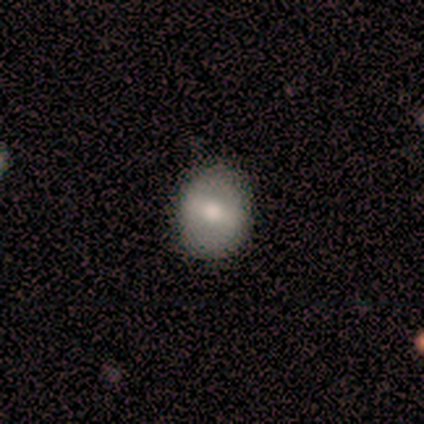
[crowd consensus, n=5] smooth-or-featured: smooth: 40% (tied) | featured or disk: 40% (tied) | star or artifact: 20%
  how-rounded: round: 50% (tied) | in between: 50% (tied) | cigar-shaped: 0%
  merging: none: 100% | minor disturbance: 0% | major disturbance: 0% | merger: 0%